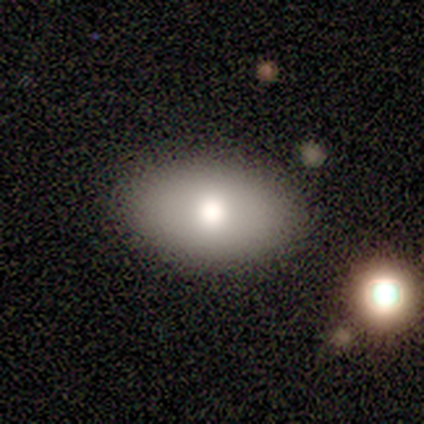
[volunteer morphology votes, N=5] This appears to be a smooth galaxy with no disk features (100%) that is in between round and cigar-shaped (100%). Merging: none (80%).